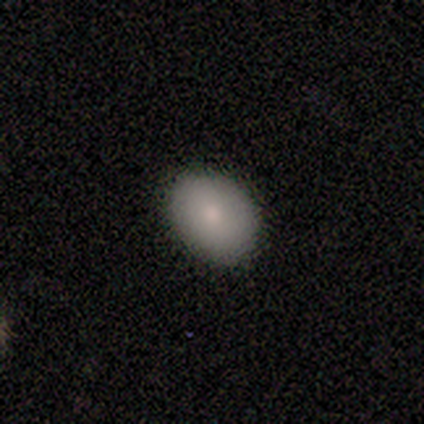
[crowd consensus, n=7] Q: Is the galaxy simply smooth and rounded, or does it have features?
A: smooth — 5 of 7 (71%).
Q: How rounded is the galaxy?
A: in between — 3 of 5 (60%).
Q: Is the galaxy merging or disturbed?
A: none — 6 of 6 (100%).